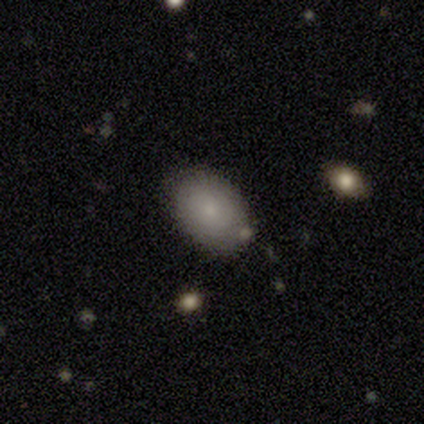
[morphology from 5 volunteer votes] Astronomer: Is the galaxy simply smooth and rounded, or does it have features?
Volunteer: smooth — 80%.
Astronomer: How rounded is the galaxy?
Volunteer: in between — 75%.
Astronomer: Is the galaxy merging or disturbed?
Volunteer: none — 60%.